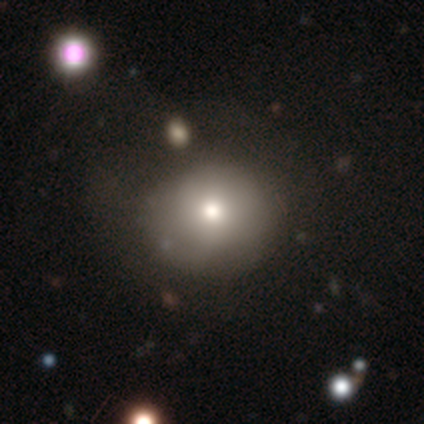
Smooth or featured? smooth (62%)
How rounded? round (80%)
Merging? none (67%)